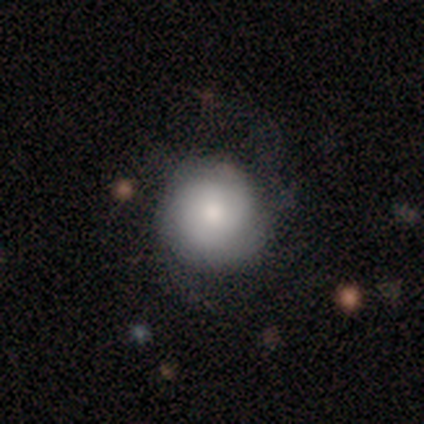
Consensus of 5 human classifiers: smooth_or_featured: smooth (p=0.60) [alt: featured or disk p=0.40]
how_rounded: round (p=1.00)
merging: none (p=1.00)